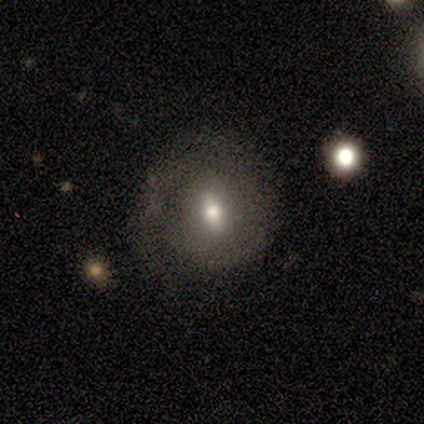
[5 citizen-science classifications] Volunteers were most divided on "spiral winding" (2-way tie): tight: 50%, medium: 50%, loose: 0%. More confident: edge-on disk — no (100%); spiral arm count — 2 (100%); bulge size — small (100%); bar — weak (67%); spiral arms — yes (67%); smooth or featured — featured or disk (60%); merging — none (50%).